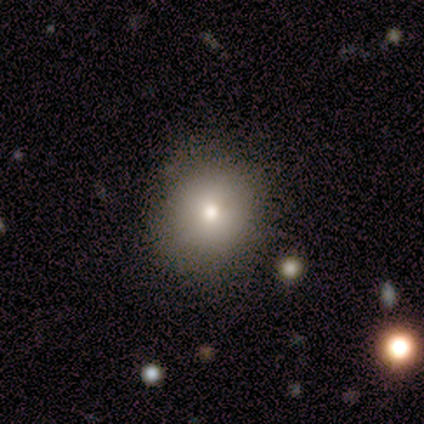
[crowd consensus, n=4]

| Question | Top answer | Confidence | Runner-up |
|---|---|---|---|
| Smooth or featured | star or artifact | 50% | smooth (25%) |